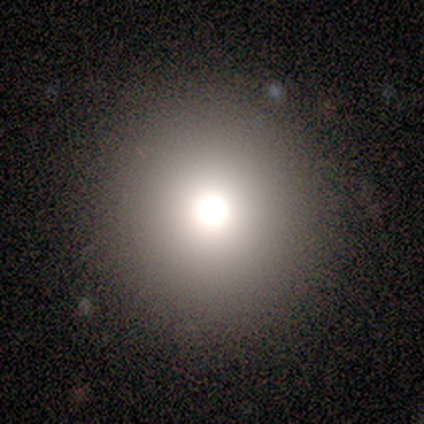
Smooth or featured?
  - smooth: 60% *
  - star or artifact: 40%
  - featured or disk: 0%
How rounded?
  - round: 100% *
  - in between: 0%
  - cigar-shaped: 0%
Merging?
  - none: 100% *
  - minor disturbance: 0%
  - major disturbance: 0%
  - merger: 0%